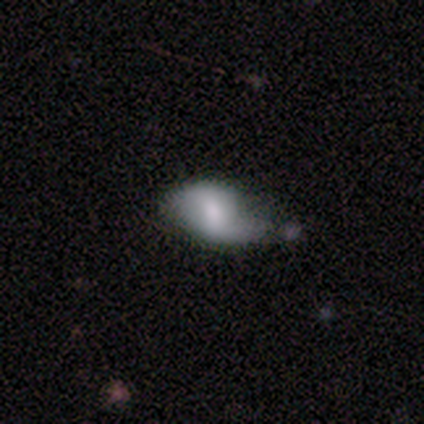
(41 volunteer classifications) This is possibly a featured or disk galaxy (49%). It is clearly not viewed edge-on (100%). Bar: possibly weak (50%). Spiral arm pattern: clearly yes (85%). Spiral arm count: clearly 2 (82%). Spiral winding: possibly loose (59%). Central bulge: marginally moderate (35%). Merging: marginally minor disturbance (39%).